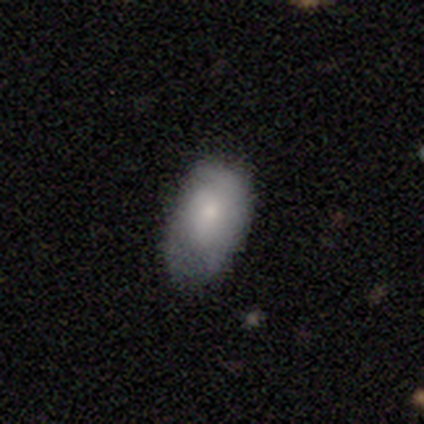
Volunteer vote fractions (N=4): A smooth galaxy with no disk features (75%) that is in between round and cigar-shaped (100%).

Vote fractions:
- Smooth or featured? smooth: 75% / featured or disk: 25% / star or artifact: 0%
- How rounded? in between: 100% / round: 0% / cigar-shaped: 0%
- Merging? minor disturbance: 50% / none: 25% / major disturbance: 25% / merger: 0%